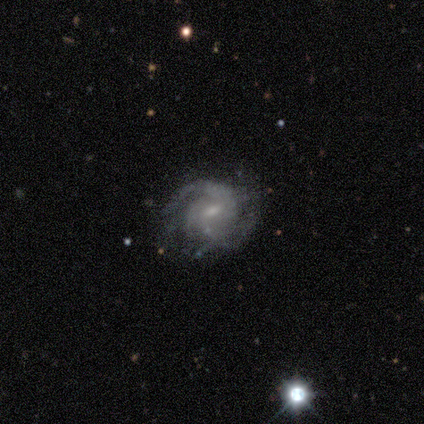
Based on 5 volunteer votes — A featured or disk galaxy (80%) with a weak bar (75%), 3 (75%) tight (50%) spiral arms (100%) and a moderate central bulge (50%, tied with small). Merging: none (100%).